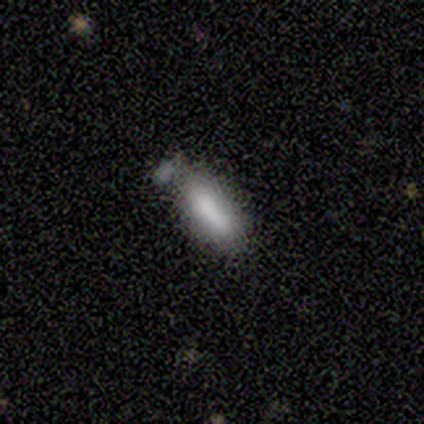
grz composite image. It shows a smooth galaxy with no disk features (80%) that is in between round and cigar-shaped (88%). Merging: none (60%).